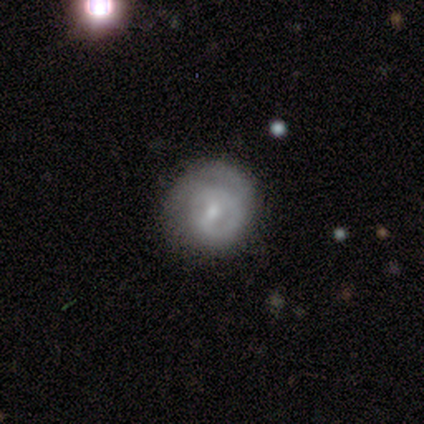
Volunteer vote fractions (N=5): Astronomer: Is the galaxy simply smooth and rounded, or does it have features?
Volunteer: featured or disk — 100%.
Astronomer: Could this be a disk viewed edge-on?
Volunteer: no — 100%.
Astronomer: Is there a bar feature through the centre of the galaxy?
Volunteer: weak — 80%.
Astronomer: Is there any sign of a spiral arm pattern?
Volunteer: no — 60% (runner-up: yes, 40%).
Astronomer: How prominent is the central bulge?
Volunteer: moderate — 40%, tied with small at 40%.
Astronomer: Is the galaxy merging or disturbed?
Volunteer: none — 60% (runner-up: minor disturbance, 40%).